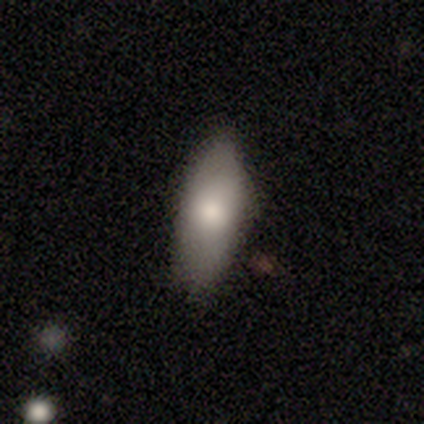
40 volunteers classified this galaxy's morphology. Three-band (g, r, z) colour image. It shows a smooth galaxy with no disk features (80%) that is in between round and cigar-shaped (78%). Merging: none (63%).